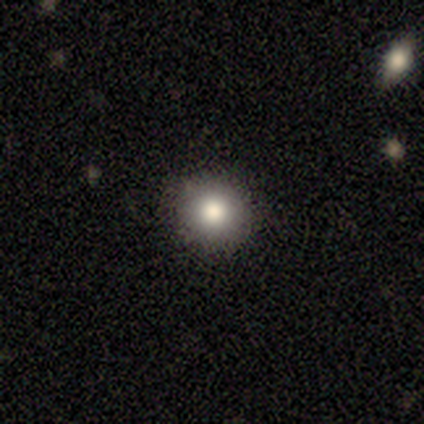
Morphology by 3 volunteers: type=smooth (100%); roundness=round (100%); merging=none (100%).